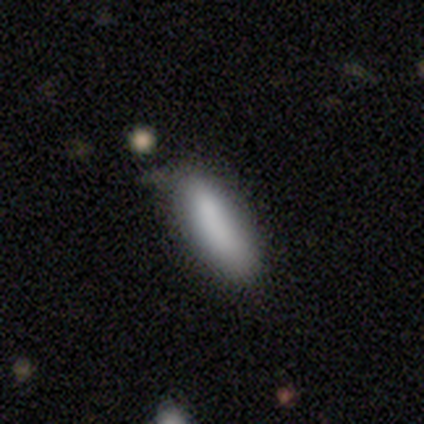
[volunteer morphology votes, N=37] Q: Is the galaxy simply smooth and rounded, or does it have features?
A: smooth — 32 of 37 (86%).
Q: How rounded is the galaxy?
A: in between — 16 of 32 (50%, tied with cigar-shaped).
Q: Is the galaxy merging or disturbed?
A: none — 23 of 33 (70%).